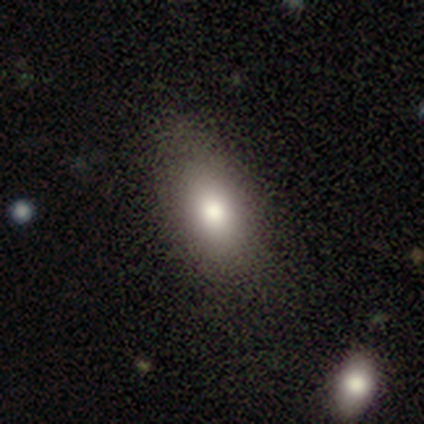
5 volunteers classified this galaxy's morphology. Smooth or featured?
  - smooth: 100% *
  - featured or disk: 0%
  - star or artifact: 0%
How rounded?
  - in between: 60% *
  - round: 40%
  - cigar-shaped: 0%
Merging?
  - none: 80% *
  - major disturbance: 20%
  - minor disturbance: 0%
  - merger: 0%